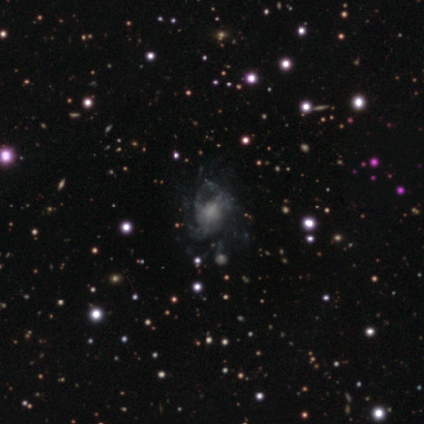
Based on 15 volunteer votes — Q: Smooth or featured?
A: featured or disk (87%); runner-up: smooth (13%)
Q: Edge-on disk?
A: no (100%)
Q: Bar?
A: no (54%); runner-up: weak (38%)
Q: Spiral arms?
A: yes (85%); runner-up: no (15%)
Q: Spiral winding?
A: loose (45%); runner-up: medium (36%)
Q: Spiral arm count?
A: 3 (55%); runner-up: can't tell (36%)
Q: Bulge size?
A: none (46%); runner-up: moderate (23%)
Q: Merging?
A: major disturbance (47%); runner-up: none (40%)